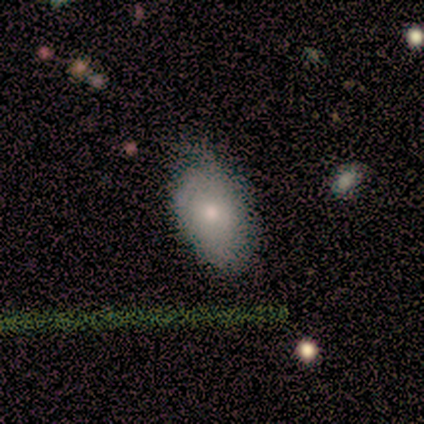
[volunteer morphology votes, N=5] Smooth or featured? 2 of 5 (40%, tied with featured or disk) said smooth. How rounded? 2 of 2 (100%) said in between. Merging? 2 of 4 (50%) said none.